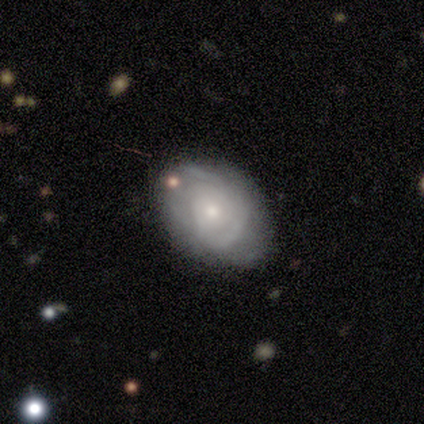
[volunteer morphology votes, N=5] A featured or disk galaxy (80%) with no bar (100%), 2 (33%, tied with more than 4 and can't tell) tight (67%) spiral arms (75%) and a small central bulge (100%). Merging: none (60%).